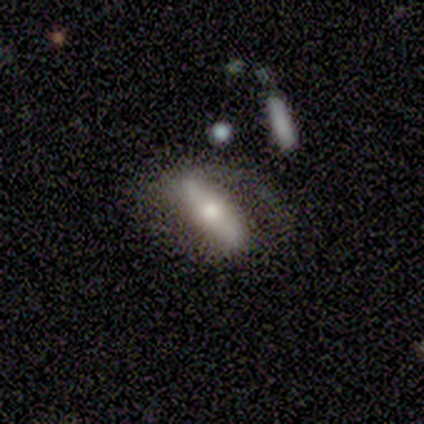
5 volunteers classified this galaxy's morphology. A smooth galaxy with no disk features (60%) that is cigar-shaped (67%). Merging: none (60%).